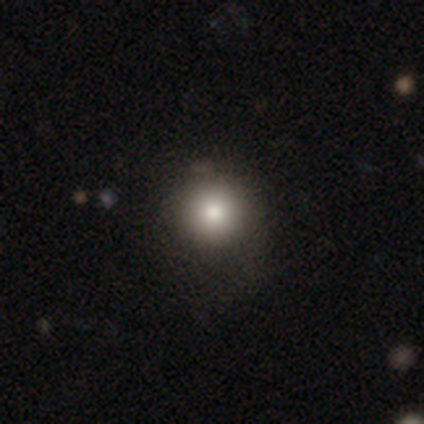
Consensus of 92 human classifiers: Smooth or featured?
  - smooth: 73% *
  - star or artifact: 16%
  - featured or disk: 11%
How rounded?
  - round: 97% *
  - in between: 3%
  - cigar-shaped: 0%
Merging?
  - none: 83% *
  - minor disturbance: 13%
  - merger: 3%
  - major disturbance: 1%